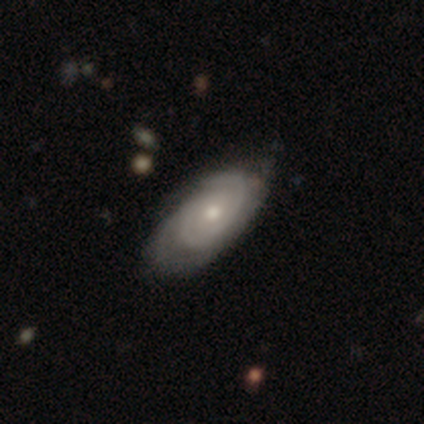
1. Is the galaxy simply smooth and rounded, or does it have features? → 87% featured or disk, 11% smooth, 3% star or artifact.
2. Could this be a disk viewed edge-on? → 97% no, 3% yes.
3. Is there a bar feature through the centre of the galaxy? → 88% no, 12% weak, 0% strong.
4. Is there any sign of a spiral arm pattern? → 100% yes, 0% no.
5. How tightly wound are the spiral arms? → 56% tight, 41% medium, 3% loose.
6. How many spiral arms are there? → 38% 2, 34% can't tell, 19% 3, 6% 1, 3% 4, 0% more than 4.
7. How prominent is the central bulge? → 62% moderate, 34% small, 3% large, 0% dominant, 0% none.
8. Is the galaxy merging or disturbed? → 41% none, 24% minor disturbance, 11% merger, 5% major disturbance.